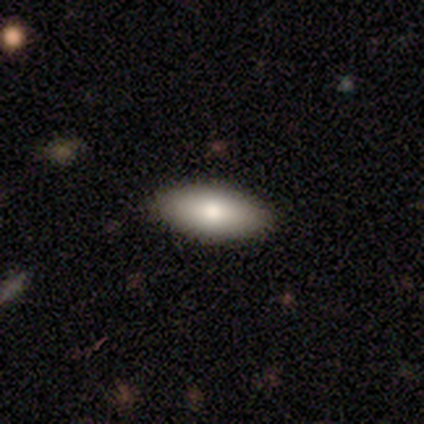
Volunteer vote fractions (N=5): A smooth galaxy with no disk features (80%) that is in between round and cigar-shaped (75%).

Vote fractions:
- Smooth or featured? smooth: 80% / featured or disk: 20% / star or artifact: 0%
- How rounded? in between: 75% / cigar-shaped: 25% / round: 0%
- Merging? none: 60% / minor disturbance: 20% / major disturbance: 20% / merger: 0%